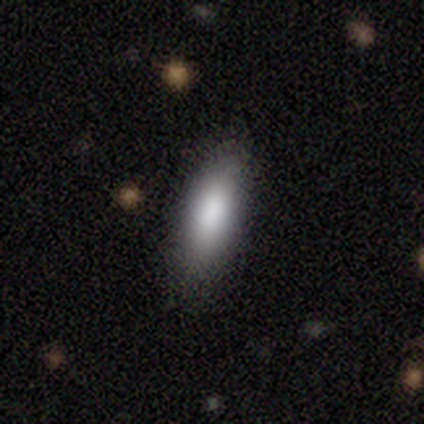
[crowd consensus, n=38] A smooth galaxy with no disk features (92%) that is in between round and cigar-shaped (63%). Merging: none (68%).